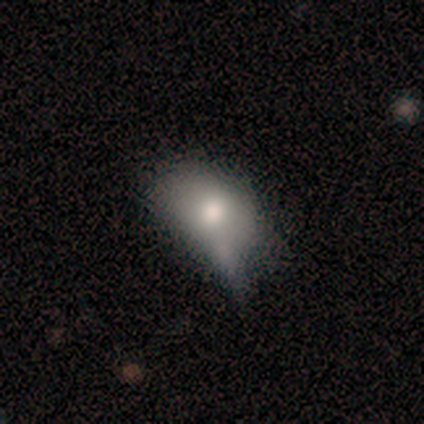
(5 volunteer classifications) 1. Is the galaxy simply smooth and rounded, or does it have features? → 60% smooth, 40% featured or disk, 0% star or artifact.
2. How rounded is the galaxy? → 100% in between, 0% round, 0% cigar-shaped.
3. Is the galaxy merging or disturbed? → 60% minor disturbance, 40% major disturbance, 0% none, 0% merger.